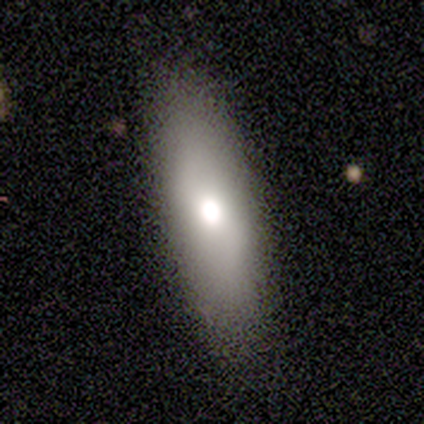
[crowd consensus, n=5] Smooth or featured?
  - smooth: 100% *
  - featured or disk: 0%
  - star or artifact: 0%
How rounded?
  - in between: 60% *
  - round: 20%
  - cigar-shaped: 20%
Merging?
  - none: 100% *
  - minor disturbance: 0%
  - major disturbance: 0%
  - merger: 0%